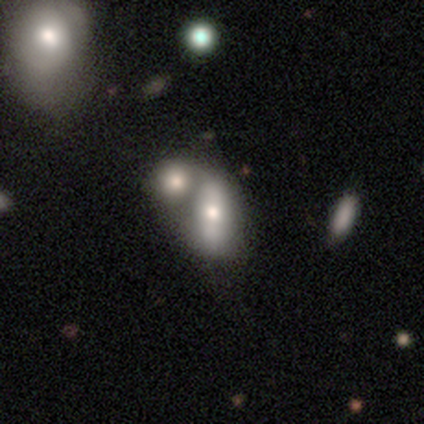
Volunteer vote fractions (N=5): smooth 100%, featured or disk 0%, star or artifact 0%. Down the decision tree: how rounded — in between (60%); merging — merger (60%).